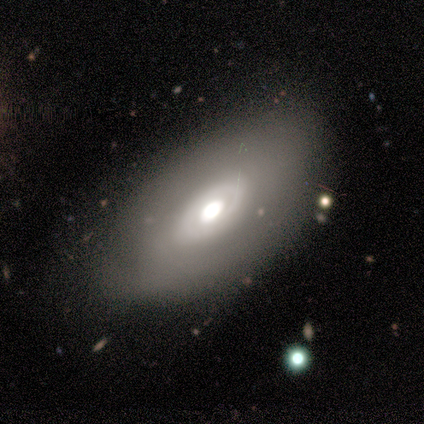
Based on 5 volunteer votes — Q: Smooth or featured?
A: featured or disk (80%); runner-up: smooth (20%)
Q: Edge-on disk?
A: no (100%)
Q: Bar?
A: weak (50%); tied with: no (50%)
Q: Spiral arms?
A: yes (50%); tied with: no (50%)
Q: Spiral winding?
A: tight (50%); tied with: loose (50%)
Q: Spiral arm count?
A: 2 (50%); tied with: can't tell (50%)
Q: Bulge size?
A: large (50%); runner-up: moderate (25%)
Q: Merging?
A: none (60%); runner-up: minor disturbance (40%)